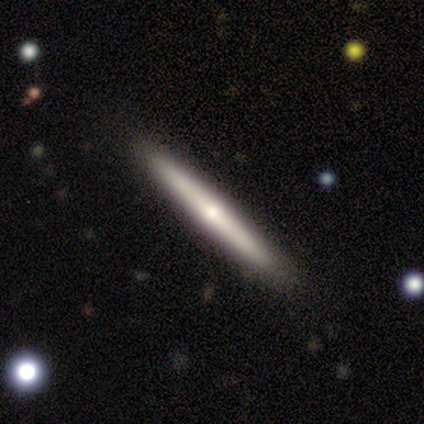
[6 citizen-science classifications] Smooth or featured: smooth — 50% (featured or disk — 33%)
How rounded: cigar-shaped — 100%
Merging: none — 100%